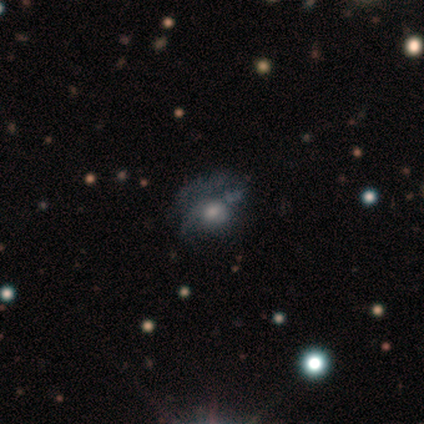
A featured or disk galaxy (38%) with no bar (93%), no spiral arms (53%) and a moderate central bulge (80%). Merging: major disturbance (54%).